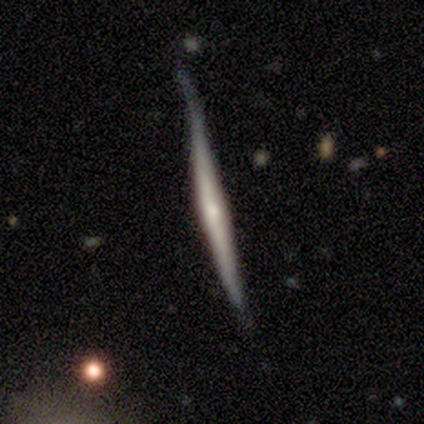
Smooth or featured?
  - featured or disk: 77% *
  - smooth: 21%
  - star or artifact: 2%
Edge-on disk?
  - yes: 100% *
  - no: 0%
Edge-on bulge?
  - rounded: 64% *
  - none: 27%
  - boxy: 9%
Merging?
  - none: 52% *
  - minor disturbance: 45%
  - major disturbance: 2%
  - merger: 1%